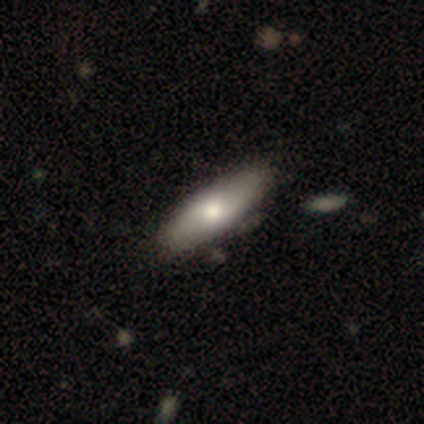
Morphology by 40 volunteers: Volunteers were most divided on "smooth or featured": smooth: 57%, featured or disk: 35%, star or artifact: 8%. More confident: how rounded — in between (65%); merging — none (62%).